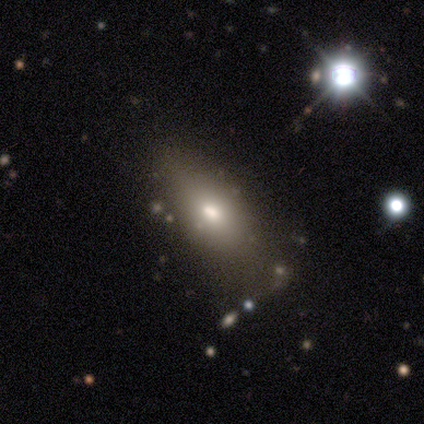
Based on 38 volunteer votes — Q: Smooth or featured?
A: smooth (87%); runner-up: star or artifact (11%)
Q: How rounded?
A: in between (85%); runner-up: cigar-shaped (12%)
Q: Merging?
A: none (68%); runner-up: minor disturbance (26%)